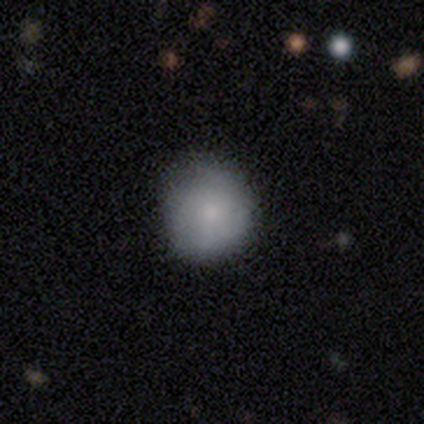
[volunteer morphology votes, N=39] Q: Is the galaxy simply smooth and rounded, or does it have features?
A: smooth — 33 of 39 (85%).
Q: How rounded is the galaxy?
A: round — 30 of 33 (91%).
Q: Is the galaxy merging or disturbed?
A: none — 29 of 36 (81%).